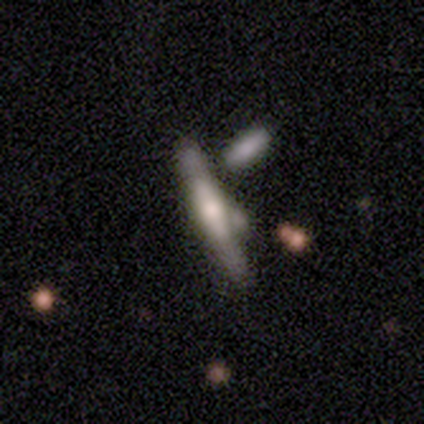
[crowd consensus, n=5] Volunteers were most divided on "smooth or featured": smooth: 60%, featured or disk: 40%, star or artifact: 0%. More confident: how rounded — cigar-shaped (100%); merging — none (60%).